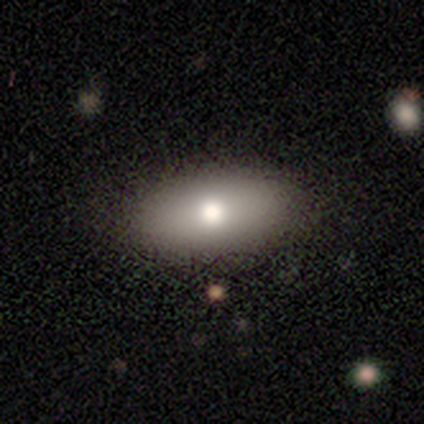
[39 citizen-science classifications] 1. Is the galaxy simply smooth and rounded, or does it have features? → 74% smooth, 21% featured or disk, 5% star or artifact.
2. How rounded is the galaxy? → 100% in between, 0% round, 0% cigar-shaped.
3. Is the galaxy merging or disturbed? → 78% none, 14% minor disturbance, 5% major disturbance, 3% merger.